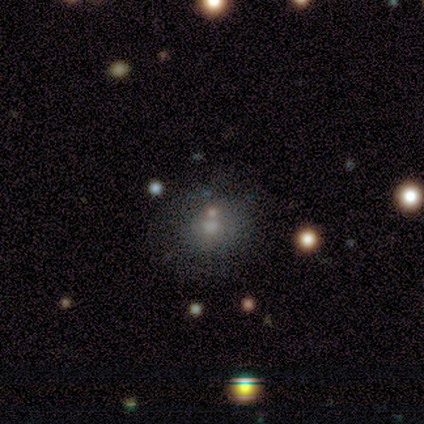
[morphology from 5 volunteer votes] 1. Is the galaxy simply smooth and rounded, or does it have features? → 40% featured or disk (tied), 40% star or artifact (tied), 20% smooth.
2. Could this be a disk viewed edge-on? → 100% no, 0% yes.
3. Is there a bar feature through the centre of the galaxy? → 100% no, 0% strong, 0% weak.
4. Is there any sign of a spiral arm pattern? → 100% no, 0% yes.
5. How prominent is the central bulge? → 50% moderate (tied), 50% small (tied), 0% dominant, 0% large, 0% none.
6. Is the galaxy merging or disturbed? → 67% none, 33% minor disturbance, 0% major disturbance, 0% merger.